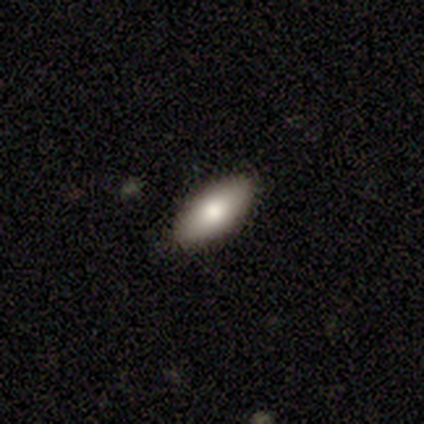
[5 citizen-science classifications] This appears to be a smooth galaxy with no disk features (80%) that is in between round and cigar-shaped (100%). Merging: none (100%).